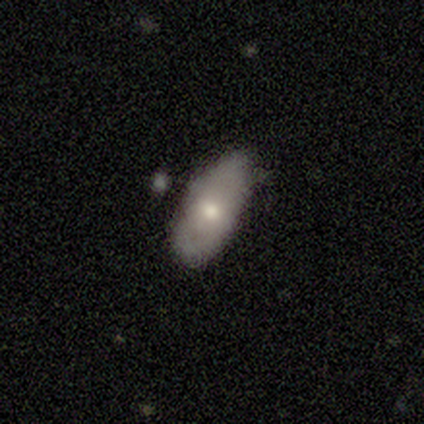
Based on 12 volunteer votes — Smooth or featured: smooth — 50% (featured or disk — 33%)
How rounded: in between — 100%
Merging: none — 50% (minor disturbance — 30%)